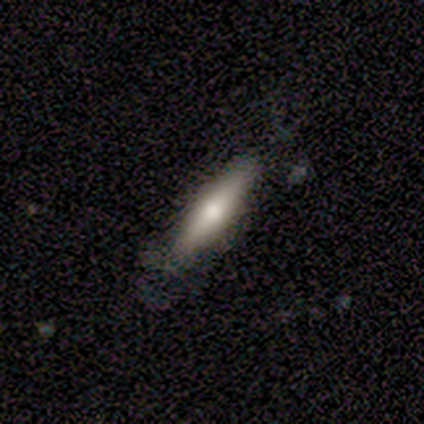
This is clearly a smooth galaxy (80%). How rounded: clearly cigar-shaped (100%). Merging: clearly none (100%).